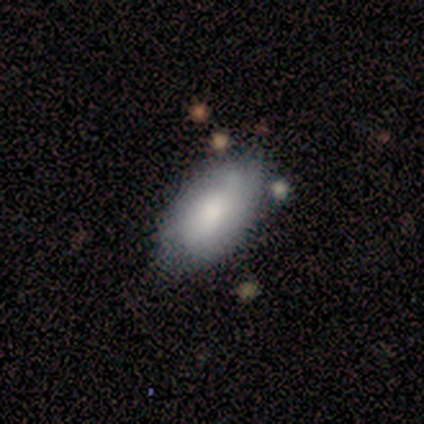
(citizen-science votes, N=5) Smooth or featured?
  - smooth: 100% *
  - featured or disk: 0%
  - star or artifact: 0%
How rounded?
  - in between: 100% *
  - round: 0%
  - cigar-shaped: 0%
Merging?
  - none: 80% *
  - minor disturbance: 20%
  - major disturbance: 0%
  - merger: 0%